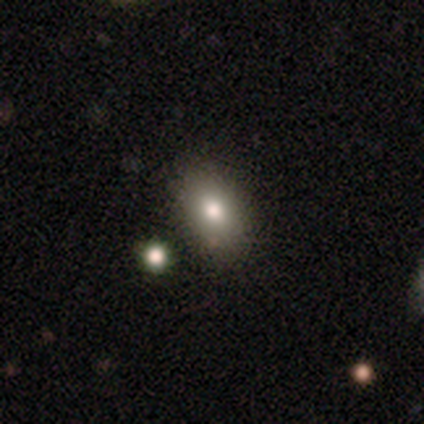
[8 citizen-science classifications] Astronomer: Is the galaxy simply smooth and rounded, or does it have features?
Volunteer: smooth — 50% (runner-up: featured or disk, 38%).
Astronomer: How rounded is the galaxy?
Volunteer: in between — 75%.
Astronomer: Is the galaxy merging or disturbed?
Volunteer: none — 100%.